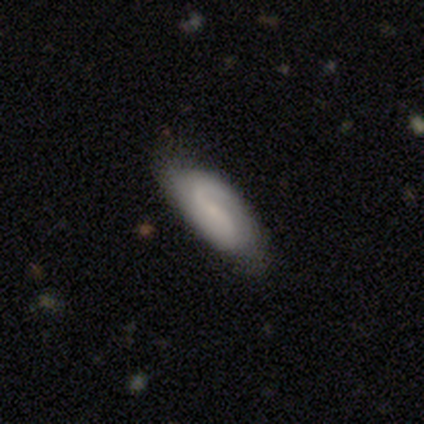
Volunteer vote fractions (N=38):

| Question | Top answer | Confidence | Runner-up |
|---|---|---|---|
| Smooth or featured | featured or disk | 74% | smooth (26%) |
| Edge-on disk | no | 89% | yes (11%) |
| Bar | weak | 44% | no (36%) |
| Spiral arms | yes | 100% | — |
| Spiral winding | medium | 56% | loose (36%) |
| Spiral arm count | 2 | 76% | 1 (16%) |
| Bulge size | small | 72% | none (20%) |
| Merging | none | 71% | major disturbance (8%) |